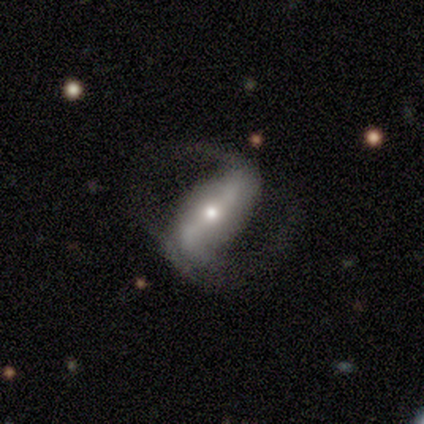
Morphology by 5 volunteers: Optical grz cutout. It shows a featured or disk galaxy (80%) viewed edge-on (50%, tied with no) with a rounded central bulge (100%). Merging: none (75%).